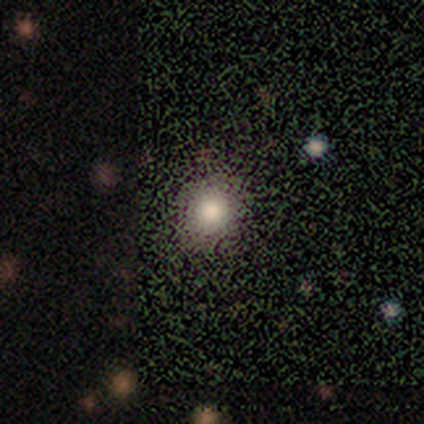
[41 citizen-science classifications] This appears to be a smooth galaxy with no disk features (80%) that is round (88%). Merging: none (89%).